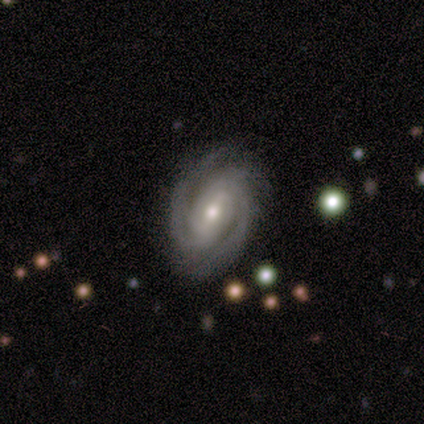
Morphology: type=featured or disk (100%); edge-on=no (100%); bar=strong (60%); spiral arms=yes (100%); winding=tight (80%); arm count=2 (60%); bulge=moderate (40%, tied with small); merging=none (80%).